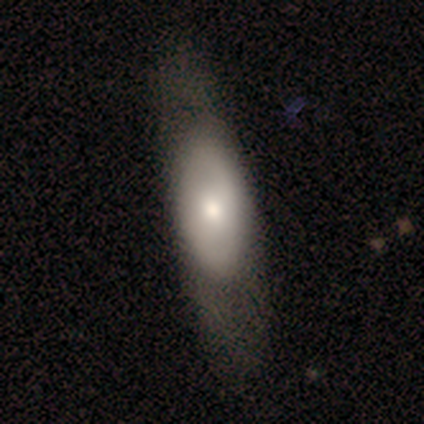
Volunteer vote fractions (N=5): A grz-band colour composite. It shows a featured or disk galaxy (100%) with no bar (100%), no spiral arms (100%) and a moderate central bulge (100%). Merging: none (60%).